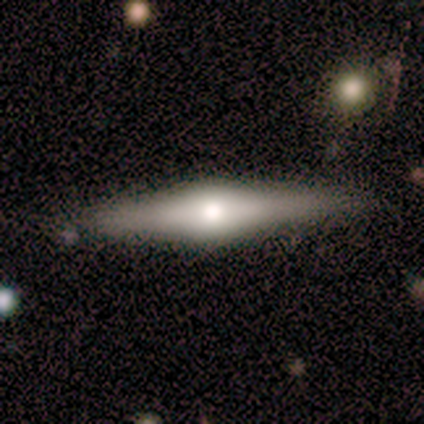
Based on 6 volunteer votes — This appears to be a smooth galaxy with no disk features (50%, tied with featured or disk) that is cigar-shaped (100%). Merging: none (83%).